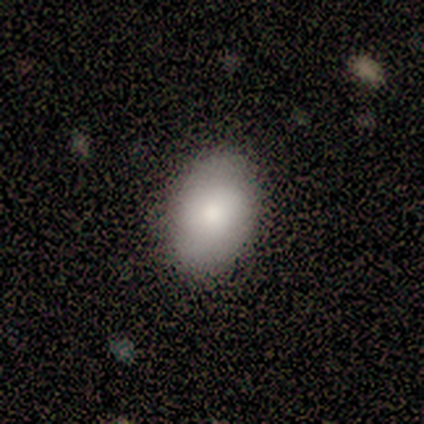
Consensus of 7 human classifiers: smooth 57%, star or artifact 43%, featured or disk 0%. Down the decision tree: how rounded — in between (75%); merging — none (75%).